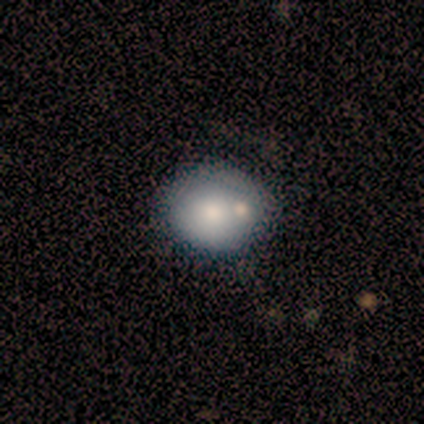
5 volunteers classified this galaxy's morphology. Smooth or featured: smooth — 100%
How rounded: round — 80% (in between — 20%)
Merging: none — 40% (tied with minor disturbance — 40%)